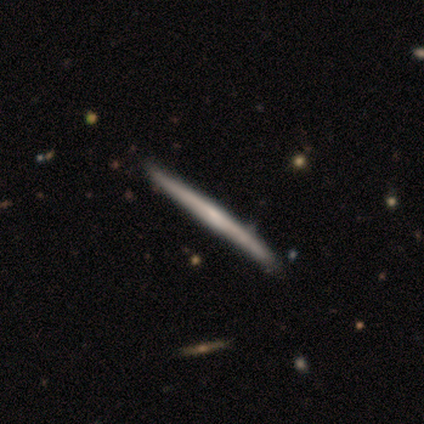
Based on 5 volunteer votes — This is likely a featured or disk galaxy (60%). It is clearly viewed edge-on (100%). Edge-on bulge: likely none (67%). Merging: clearly none (80%).